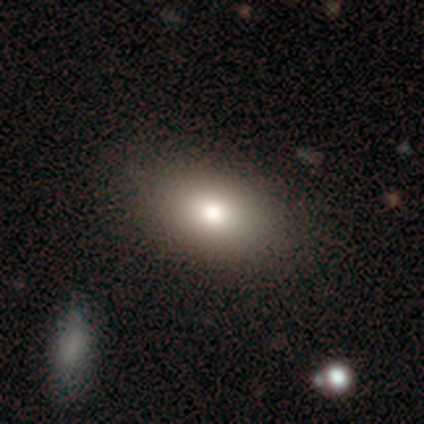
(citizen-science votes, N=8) This appears to be a smooth galaxy with no disk features (50%) that is in between round and cigar-shaped (100%). Merging: none (100%).